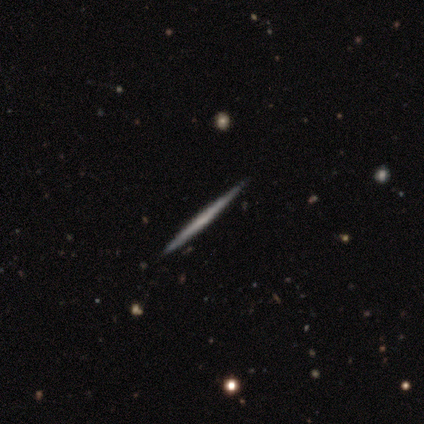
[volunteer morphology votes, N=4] Overall: featured or disk (50%; smooth 25%). Edge-on disk: yes (100%). Edge-on bulge: none (100%). Merging: none (100%).